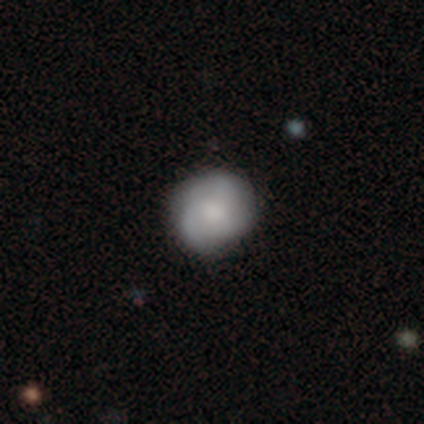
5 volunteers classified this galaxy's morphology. Overall: smooth (60%; featured or disk 40%). How rounded: in between (67%; round 33%). Merging: none (40%, tied with minor disturbance).